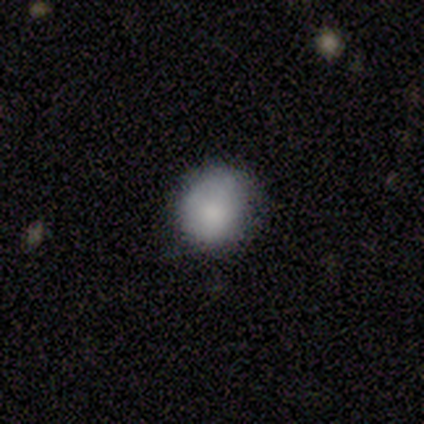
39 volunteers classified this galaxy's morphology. type=smooth (77%); roundness=round (87%); merging=none (57%).